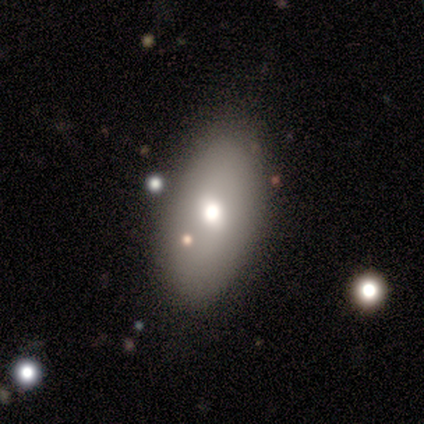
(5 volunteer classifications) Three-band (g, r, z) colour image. It shows a smooth galaxy with no disk features (40%, tied with featured or disk) that is in between round and cigar-shaped (100%). Merging: none (75%).